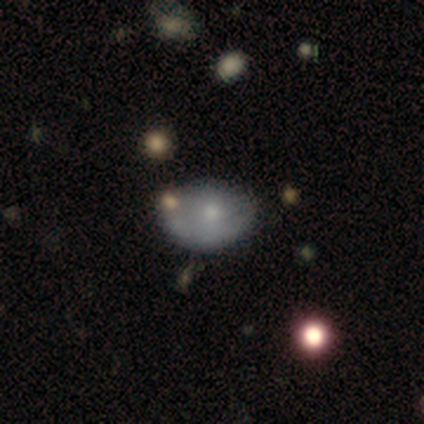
Smooth or featured: smooth — 72% (featured or disk — 28%)
How rounded: in between — 71% (round — 25%)
Merging: none — 49% (minor disturbance — 31%)